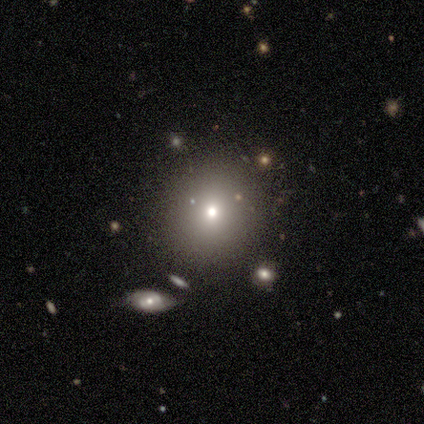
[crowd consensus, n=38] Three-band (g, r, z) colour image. It shows a smooth galaxy with no disk features (79%) that is round (80%). Merging: none (83%).